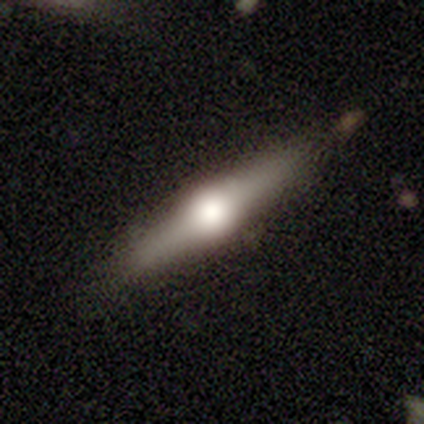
Smooth or featured?
  - featured or disk: 60% *
  - smooth: 20%
  - star or artifact: 20%
Edge-on disk?
  - yes: 100% *
  - no: 0%
Edge-on bulge?
  - rounded: 100% *
  - boxy: 0%
  - none: 0%
Merging?
  - none: 100% *
  - minor disturbance: 0%
  - major disturbance: 0%
  - merger: 0%